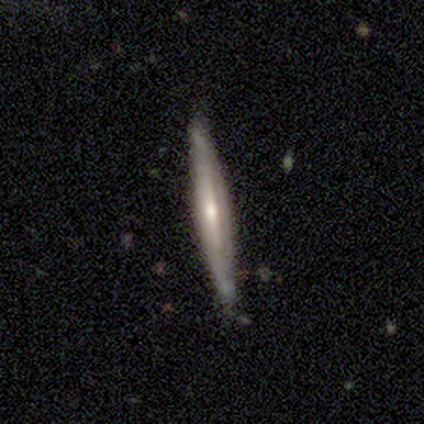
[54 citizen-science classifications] Smooth or featured?
  - featured or disk: 74% *
  - smooth: 22%
  - star or artifact: 4%
Edge-on disk?
  - yes: 90% *
  - no: 10%
Edge-on bulge?
  - rounded: 67% *
  - none: 31%
  - boxy: 3%
Merging?
  - none: 77% *
  - minor disturbance: 17%
  - major disturbance: 4%
  - merger: 2%